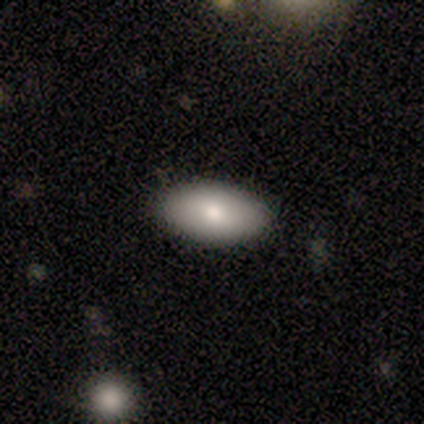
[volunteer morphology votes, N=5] Smooth or featured: smooth — 100%
How rounded: in between — 100%
Merging: none — 100%